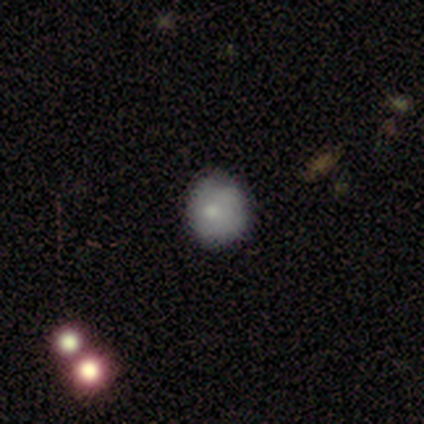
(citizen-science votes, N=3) smooth 67%, featured or disk 33%, star or artifact 0%. Down the decision tree: how rounded — round (100%); merging — none (33%, tied with minor disturbance and major disturbance).